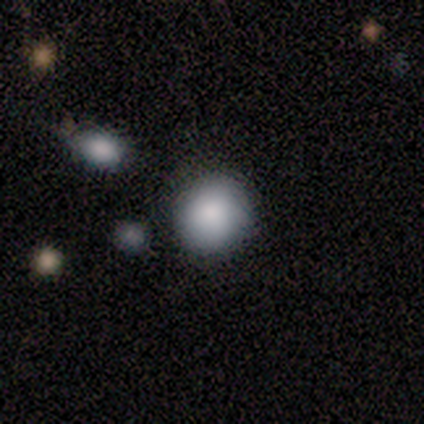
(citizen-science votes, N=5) This is likely a smooth galaxy (60%). How rounded: clearly round (100%). Merging: clearly none (100%).